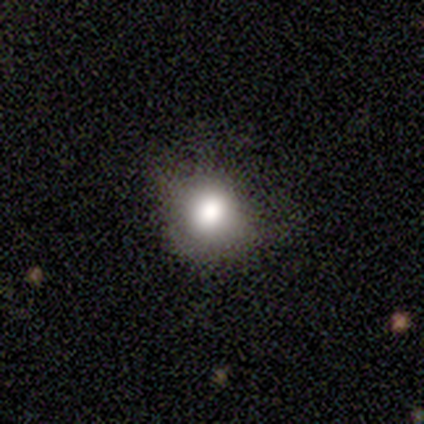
This is likely a smooth galaxy (73%). How rounded: possibly round (55%). Merging: possibly none (54%).